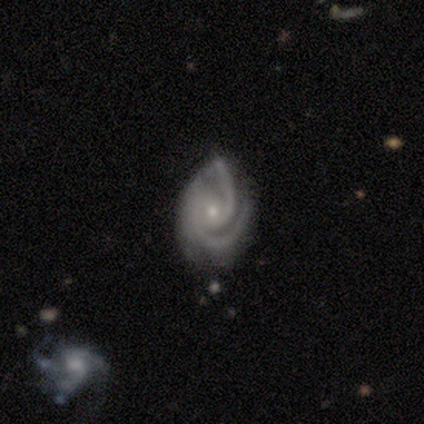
smooth-or-featured: featured or disk: 82% | smooth: 9% | star or artifact: 9%
  disk-edge-on: no: 100% | yes: 0%
    bar: no: 67% | strong: 22% | weak: 11%
    has-spiral-arms: yes: 100% | no: 0%
      spiral-winding: tight: 67% | medium: 33% | loose: 0%
      spiral-arm-count: 2: 56% | 3: 44% | 1: 0% | 4: 0% | more than 4: 0% | can't tell: 0%
    bulge-size: small: 89% | moderate: 11% | dominant: 0% | large: 0% | none: 0%
  merging: none: 70% | minor disturbance: 30% | major disturbance: 0% | merger: 0%